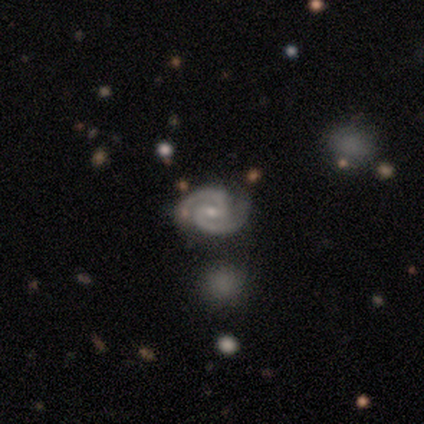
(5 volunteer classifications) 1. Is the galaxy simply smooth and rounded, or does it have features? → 100% featured or disk, 0% smooth, 0% star or artifact.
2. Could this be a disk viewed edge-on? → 100% no, 0% yes.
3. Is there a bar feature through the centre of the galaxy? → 80% no, 20% weak, 0% strong.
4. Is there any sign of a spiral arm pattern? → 100% yes, 0% no.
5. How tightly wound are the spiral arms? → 60% tight, 40% medium, 0% loose.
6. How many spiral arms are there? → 100% 2, 0% 1, 0% 3, 0% 4, 0% more than 4, 0% can't tell.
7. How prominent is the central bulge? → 60% small, 40% moderate, 0% dominant, 0% large, 0% none.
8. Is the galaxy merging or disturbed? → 40% none (tied), 40% minor disturbance (tied), 20% merger, 0% major disturbance.